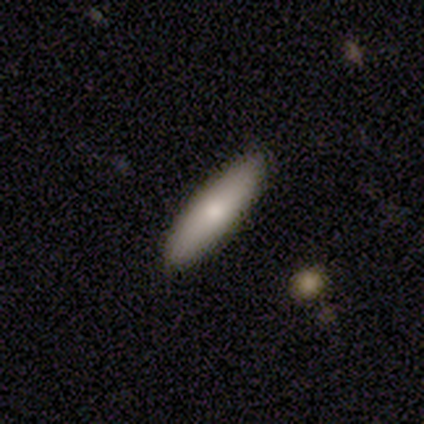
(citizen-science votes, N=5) Smooth or featured?
  - smooth: 80% *
  - featured or disk: 20%
  - star or artifact: 0%
How rounded?
  - in between: 50% * (tied)
  - cigar-shaped: 50% * (tied)
  - round: 0%
Merging?
  - none: 80% *
  - minor disturbance: 20%
  - major disturbance: 0%
  - merger: 0%